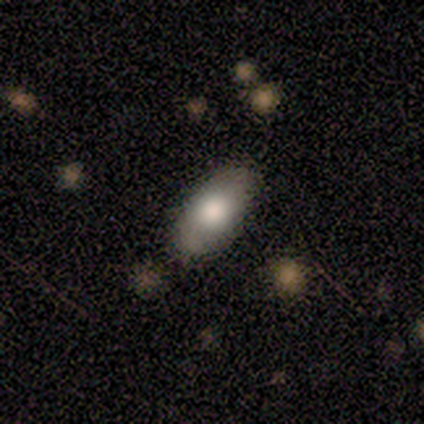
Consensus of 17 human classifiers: Smooth or featured? 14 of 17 (82%) said smooth. How rounded? 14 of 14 (100%) said in between. Merging? 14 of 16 (88%) said none.